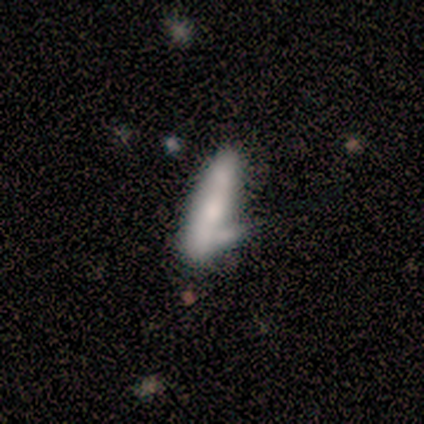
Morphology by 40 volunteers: smooth 50%, featured or disk 42%, star or artifact 8%. Down the decision tree: how rounded — cigar-shaped (85%); merging — merger (32%).